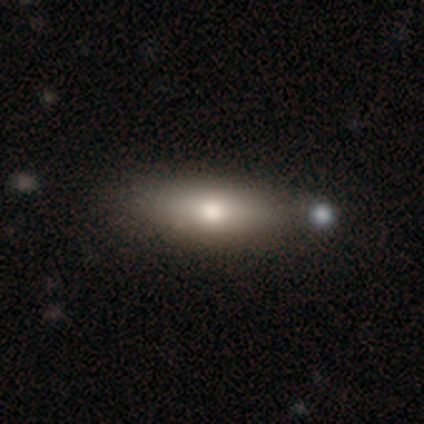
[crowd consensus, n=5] This is marginally a smooth galaxy (40%, tied with featured or disk). How rounded: possibly in between (50%, tied with cigar-shaped). Merging: possibly none (50%).